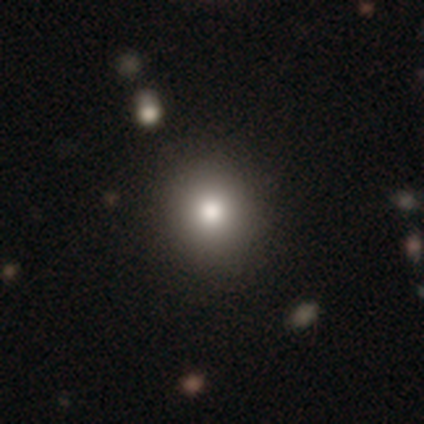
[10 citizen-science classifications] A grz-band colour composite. It shows a smooth galaxy with no disk features (90%) that is round (89%). Merging: none (89%).